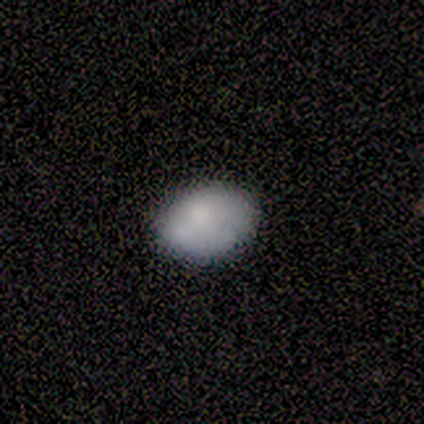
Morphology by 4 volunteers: This is likely a smooth galaxy (75%). How rounded: clearly in between (100%). Merging: likely none (75%).